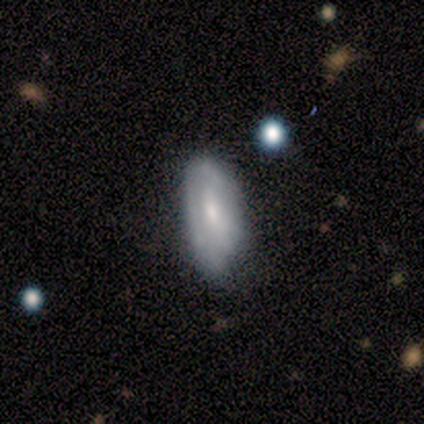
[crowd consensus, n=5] Smooth or featured?
  - smooth: 60% *
  - featured or disk: 40%
  - star or artifact: 0%
How rounded?
  - in between: 67% *
  - cigar-shaped: 33%
  - round: 0%
Merging?
  - minor disturbance: 80% *
  - major disturbance: 20%
  - none: 0%
  - merger: 0%